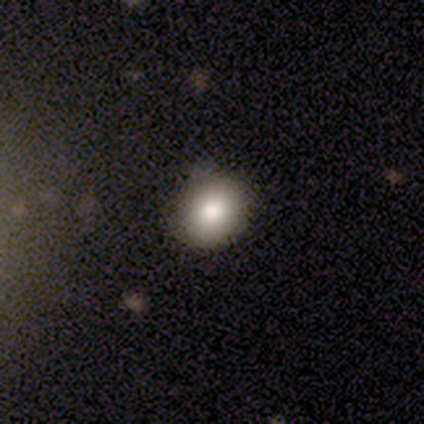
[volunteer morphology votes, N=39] A smooth galaxy with no disk features (72%) that is round (71%). Merging: none (92%).